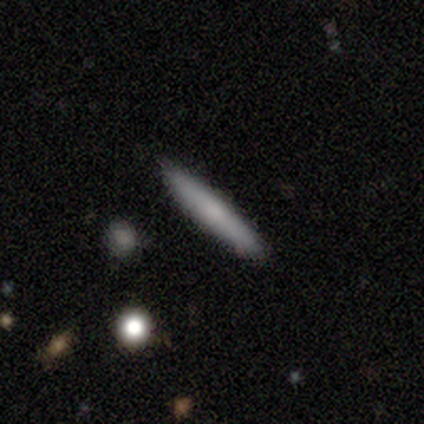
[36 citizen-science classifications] Q: Smooth or featured?
A: smooth (67%); runner-up: featured or disk (28%)
Q: How rounded?
A: cigar-shaped (100%)
Q: Merging?
A: none (91%); runner-up: minor disturbance (6%)